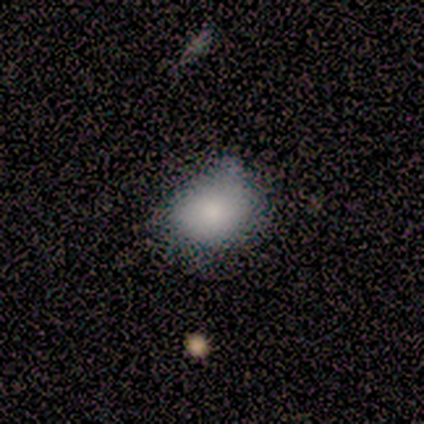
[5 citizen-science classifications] A smooth galaxy with no disk features (100%) that is round (100%). Merging: none (80%).